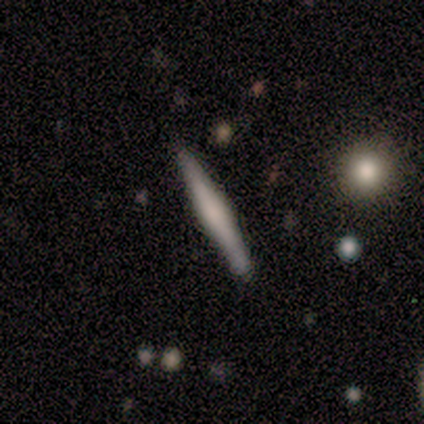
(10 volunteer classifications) Overall: featured or disk (70%; smooth 30%). Edge-on disk: yes (100%). Edge-on bulge: rounded (57%; boxy 43%). Merging: none (90%).